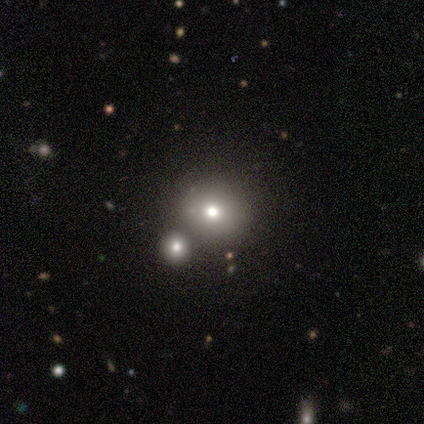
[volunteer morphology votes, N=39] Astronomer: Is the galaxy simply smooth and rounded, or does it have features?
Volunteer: smooth — 72%.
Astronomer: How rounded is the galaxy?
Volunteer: round — 79%.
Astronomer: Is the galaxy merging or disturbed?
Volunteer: merger — 55%.